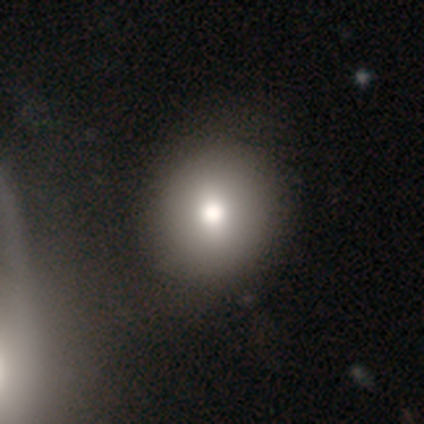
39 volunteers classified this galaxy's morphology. Smooth or featured: smooth — 85% (featured or disk — 8%)
How rounded: round — 79% (in between — 21%)
Merging: none — 61% (merger — 14%)